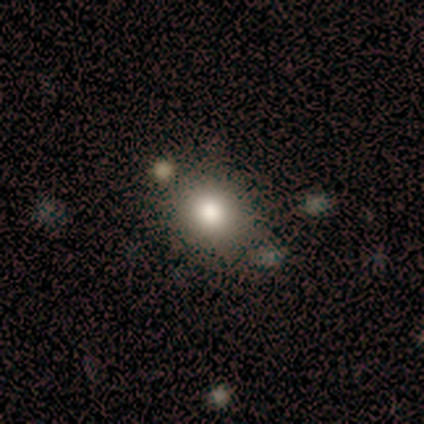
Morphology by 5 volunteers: smooth_or_featured: smooth (p=0.80) [alt: star or artifact p=0.20]
how_rounded: round (p=0.75) [alt: in between p=0.25]
merging: merger (p=0.50) [alt: none p=0.25]